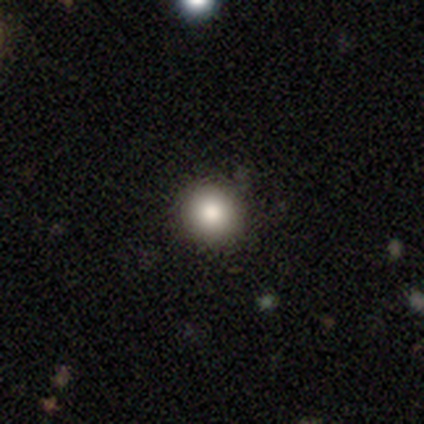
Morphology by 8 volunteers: This is clearly a smooth galaxy (88%). How rounded: likely round (71%). Merging: clearly none (88%).